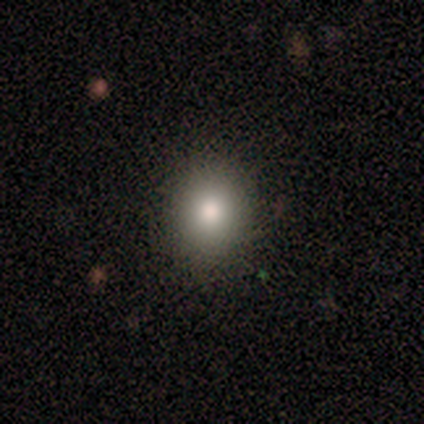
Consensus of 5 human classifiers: smooth 100%, featured or disk 0%, star or artifact 0%. Down the decision tree: how rounded — round (80%); merging — none (100%).